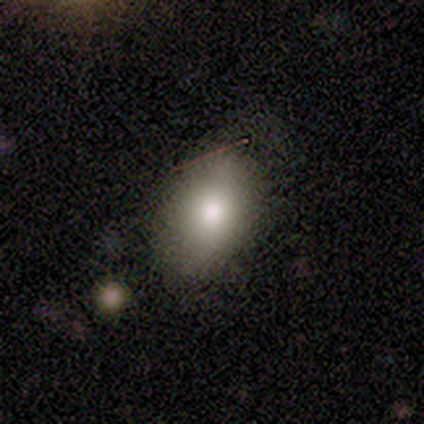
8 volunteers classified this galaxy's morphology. Smooth or featured? 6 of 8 (75%) said smooth. How rounded? 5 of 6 (83%) said in between. Merging? 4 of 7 (57%) said none.